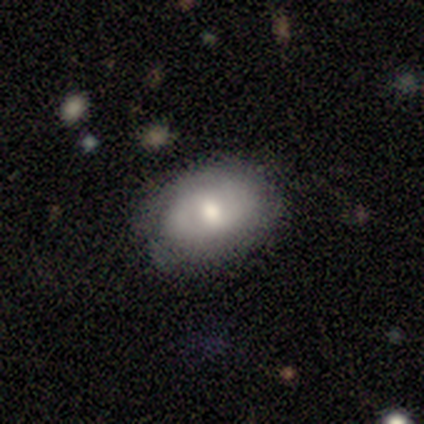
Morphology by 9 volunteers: smooth-or-featured: featured or disk: 56% | smooth: 44% | star or artifact: 0%
  disk-edge-on: no: 80% | yes: 20%
    bar: no: 75% | strong: 25% | weak: 0%
    has-spiral-arms: no: 75% | yes: 25%
    bulge-size: moderate: 50% | large: 25% | small: 25% | dominant: 0% | none: 0%
  merging: none: 100% | minor disturbance: 0% | major disturbance: 0% | merger: 0%